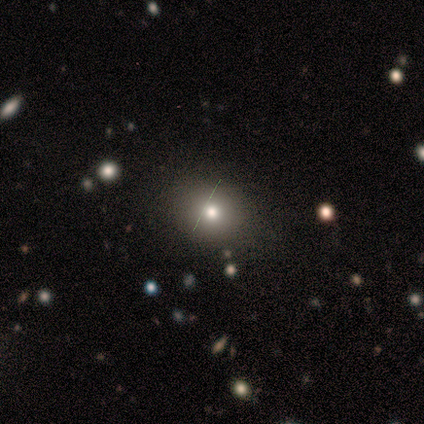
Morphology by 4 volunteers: A smooth galaxy with no disk features (75%) that is round (100%). Merging: none (100%).